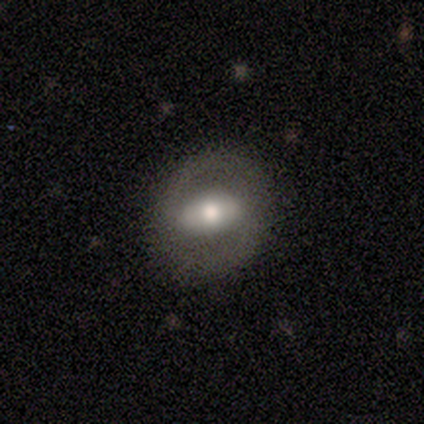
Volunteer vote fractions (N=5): A smooth galaxy with no disk features (60%) that is in between round and cigar-shaped (100%).

Vote fractions:
- Smooth or featured? smooth: 60% / featured or disk: 40% / star or artifact: 0%
- How rounded? in between: 100% / round: 0% / cigar-shaped: 0%
- Merging? none: 80% / major disturbance: 20% / minor disturbance: 0% / merger: 0%